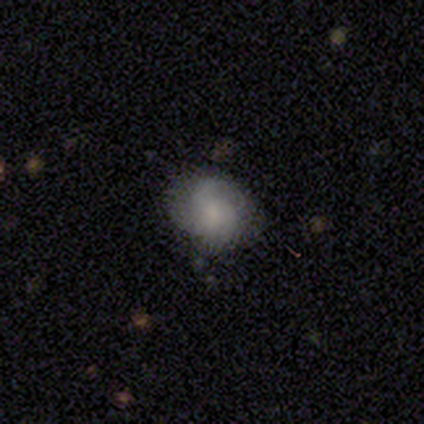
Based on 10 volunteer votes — Q: Smooth or featured?
A: featured or disk (60%); runner-up: smooth (40%)
Q: Edge-on disk?
A: no (83%); runner-up: yes (17%)
Q: Bar?
A: no (80%); runner-up: strong (20%)
Q: Spiral arms?
A: yes (80%); runner-up: no (20%)
Q: Spiral winding?
A: medium (75%); runner-up: loose (25%)
Q: Spiral arm count?
A: 2 (50%); tied with: 3 (50%)
Q: Bulge size?
A: small (60%); runner-up: large (20%)
Q: Merging?
A: none (70%); runner-up: minor disturbance (20%)